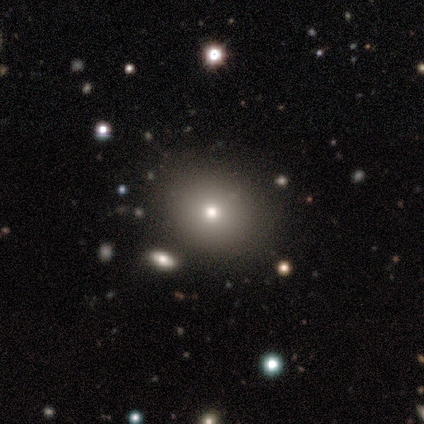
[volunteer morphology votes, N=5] Overall: smooth (80%). How rounded: in between (100%). Merging: none (80%).